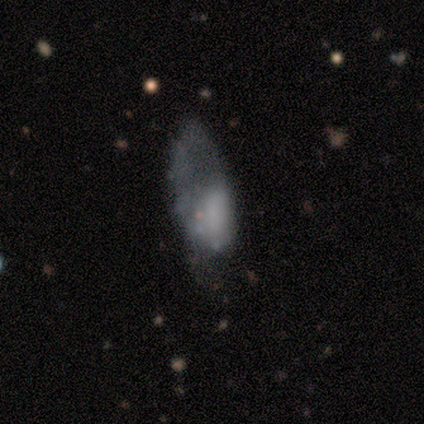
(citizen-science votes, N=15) Overall: featured or disk (47%; smooth 40%). Edge-on disk: no (86%). Bar: no (100%). Spiral arms: no (100%). Bulge size: none (50%; large 33%). Merging: major disturbance (54%; none 31%).